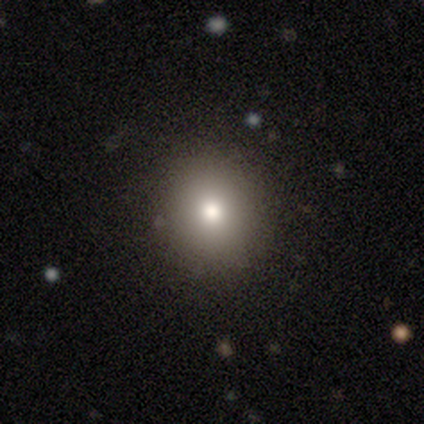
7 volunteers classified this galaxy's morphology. A smooth galaxy with no disk features (100%) that is round (86%). Merging: none (86%).